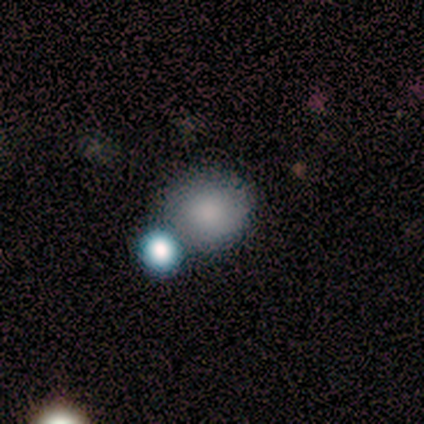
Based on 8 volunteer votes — Smooth or featured?
  - smooth: 75% *
  - featured or disk: 12%
  - star or artifact: 12%
How rounded?
  - round: 83% *
  - in between: 17%
  - cigar-shaped: 0%
Merging?
  - none: 100% *
  - minor disturbance: 0%
  - major disturbance: 0%
  - merger: 0%